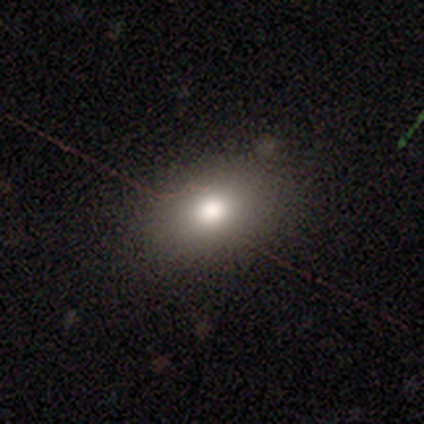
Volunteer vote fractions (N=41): This is possibly a smooth galaxy (59%). How rounded: clearly in between (83%). Merging: clearly none (84%).